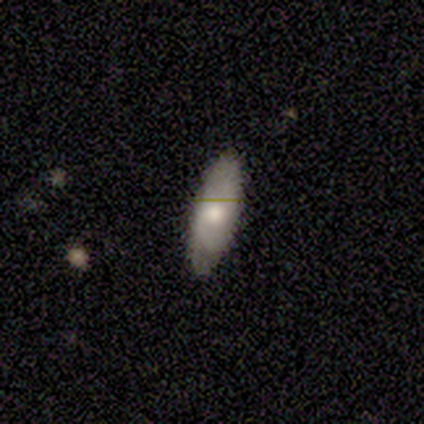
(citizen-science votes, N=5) Smooth or featured?
  - smooth: 80% *
  - featured or disk: 20%
  - star or artifact: 0%
How rounded?
  - in between: 75% *
  - cigar-shaped: 25%
  - round: 0%
Merging?
  - none: 60% *
  - minor disturbance: 20%
  - merger: 20%
  - major disturbance: 0%